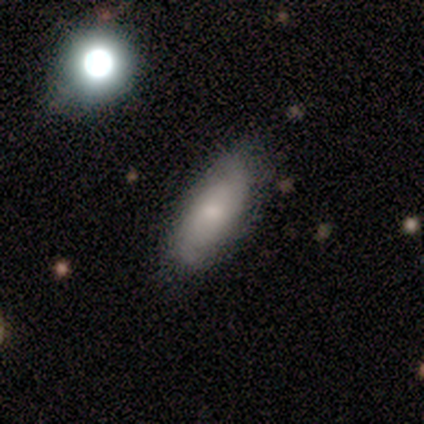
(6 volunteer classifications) Smooth or featured?
  - smooth: 67% *
  - featured or disk: 33%
  - star or artifact: 0%
How rounded?
  - in between: 75% *
  - cigar-shaped: 25%
  - round: 0%
Merging?
  - none: 83% *
  - minor disturbance: 17%
  - major disturbance: 0%
  - merger: 0%